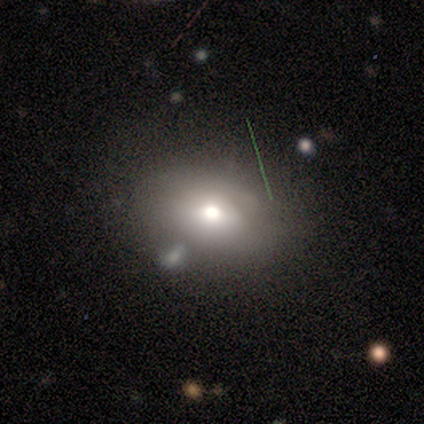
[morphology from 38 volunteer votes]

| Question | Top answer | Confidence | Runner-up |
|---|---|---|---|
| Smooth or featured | smooth | 71% | featured or disk (16%) |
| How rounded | in between | 81% | round (19%) |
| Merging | none | 64% | minor disturbance (21%) |